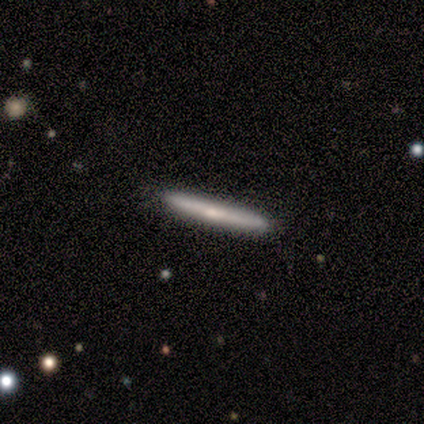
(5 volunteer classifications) A smooth galaxy with no disk features (100%) that is cigar-shaped (100%). Merging: none (80%).